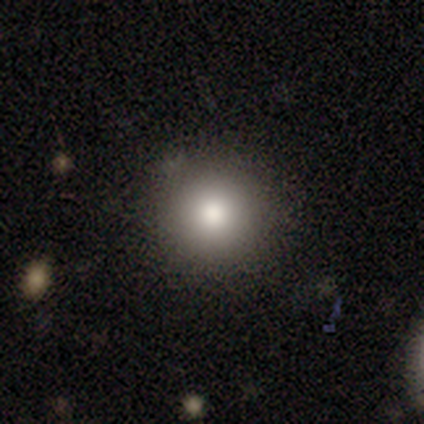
Smooth or featured?
  - smooth: 80% *
  - star or artifact: 20%
  - featured or disk: 0%
How rounded?
  - round: 100% *
  - in between: 0%
  - cigar-shaped: 0%
Merging?
  - none: 75% *
  - minor disturbance: 25%
  - major disturbance: 0%
  - merger: 0%